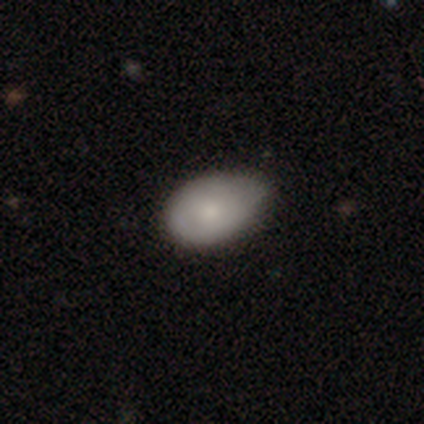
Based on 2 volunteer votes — Smooth or featured?
  - smooth: 100% *
  - featured or disk: 0%
  - star or artifact: 0%
How rounded?
  - round: 50% * (tied)
  - in between: 50% * (tied)
  - cigar-shaped: 0%
Merging?
  - none: 50% * (tied)
  - minor disturbance: 50% * (tied)
  - major disturbance: 0%
  - merger: 0%